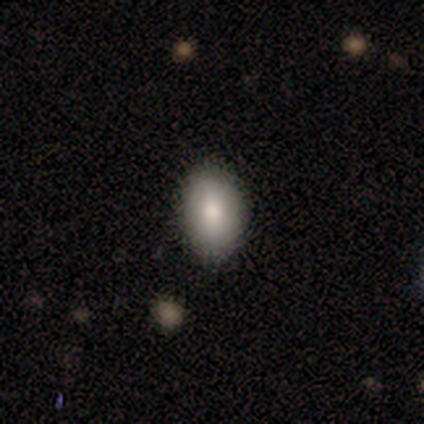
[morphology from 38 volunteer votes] smooth_or_featured: smooth (p=0.68) [alt: star or artifact p=0.18]
how_rounded: in between (p=0.96) [alt: round p=0.04]
merging: none (p=0.74) [alt: minor disturbance p=0.23]